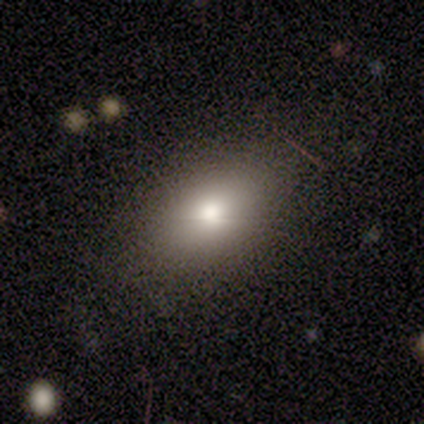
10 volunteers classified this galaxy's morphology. Smooth or featured: smooth — 90% (star or artifact — 10%)
How rounded: in between — 100%
Merging: none — 78% (minor disturbance — 22%)